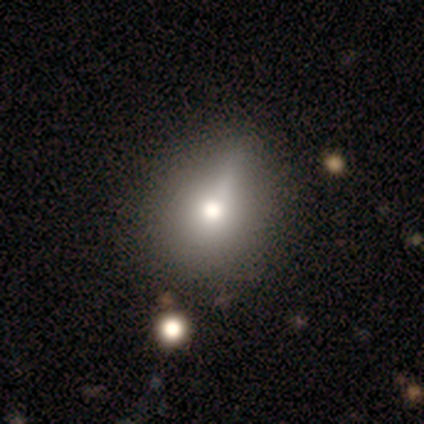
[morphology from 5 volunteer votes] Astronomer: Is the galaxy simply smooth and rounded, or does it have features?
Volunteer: featured or disk — 80%.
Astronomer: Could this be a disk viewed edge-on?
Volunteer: no — 75%.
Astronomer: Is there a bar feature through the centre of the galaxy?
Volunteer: weak — 67%.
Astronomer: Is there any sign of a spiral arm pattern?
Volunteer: no — 100%.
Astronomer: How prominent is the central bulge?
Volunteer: moderate — 67%.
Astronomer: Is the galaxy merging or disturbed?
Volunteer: none — 60%.